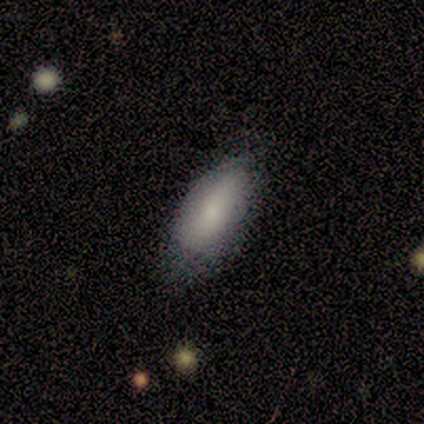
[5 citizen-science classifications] Smooth or featured? 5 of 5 (100%) said smooth. How rounded? 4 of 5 (80%) said in between. Merging? 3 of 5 (60%) said minor disturbance.